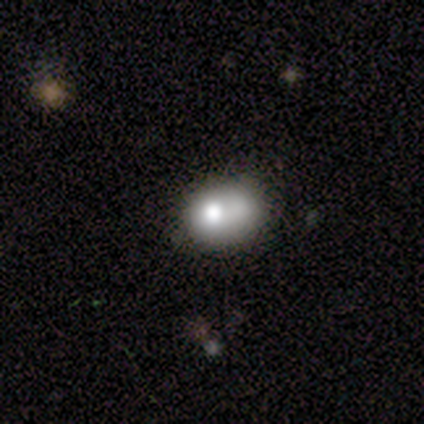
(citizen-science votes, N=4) Morphology: type=smooth (50%); roundness=in between (100%); merging=none (67%).